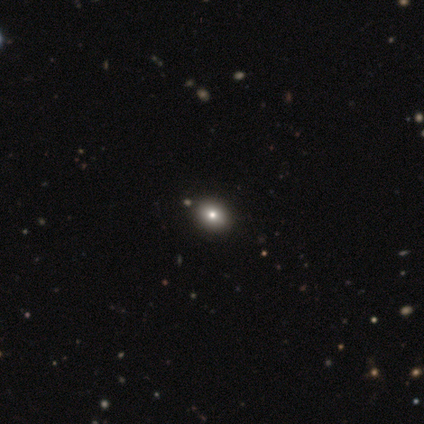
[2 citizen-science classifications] Smooth or featured?
  - smooth: 100% *
  - featured or disk: 0%
  - star or artifact: 0%
How rounded?
  - round: 50% * (tied)
  - in between: 50% * (tied)
  - cigar-shaped: 0%
Merging?
  - none: 100% *
  - minor disturbance: 0%
  - major disturbance: 0%
  - merger: 0%